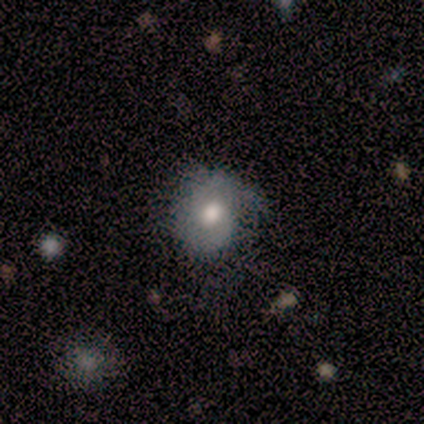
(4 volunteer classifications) Q: Smooth or featured?
A: smooth (75%); runner-up: featured or disk (25%)
Q: How rounded?
A: round (100%)
Q: Merging?
A: minor disturbance (50%); runner-up: none (25%)